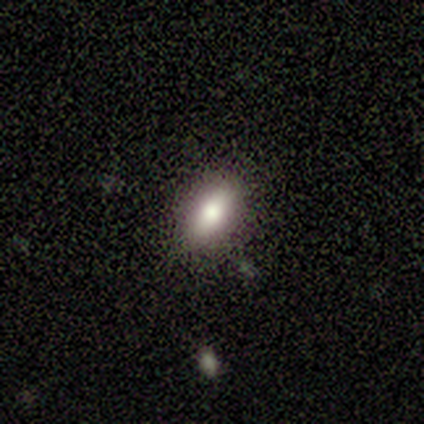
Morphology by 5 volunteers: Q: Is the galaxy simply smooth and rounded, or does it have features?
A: smooth — 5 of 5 (100%).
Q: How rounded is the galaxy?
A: in between — 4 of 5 (80%).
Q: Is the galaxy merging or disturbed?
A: none — 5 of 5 (100%).